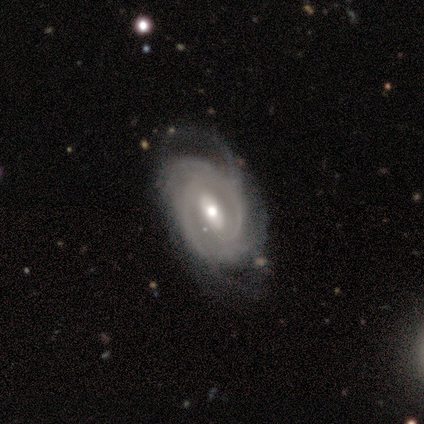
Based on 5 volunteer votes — Smooth or featured? featured or disk (100%)
Edge-on disk? no (60%)
Bar? strong (33%, tied with weak and no)
Spiral arms? yes (100%)
Spiral winding? tight (33%, tied with medium and loose)
Spiral arm count? 2 (67%)
Bulge size? moderate (67%)
Merging? major disturbance (60%)